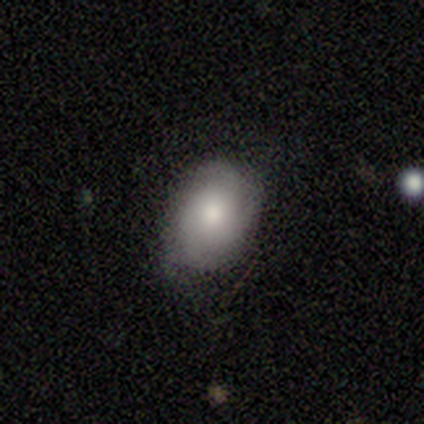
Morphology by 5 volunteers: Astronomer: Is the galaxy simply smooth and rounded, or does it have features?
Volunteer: featured or disk — 60% (runner-up: smooth, 40%).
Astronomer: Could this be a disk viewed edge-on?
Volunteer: no — 100%.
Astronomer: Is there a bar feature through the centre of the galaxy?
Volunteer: no — 100%.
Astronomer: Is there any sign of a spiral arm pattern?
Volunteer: yes — 100%.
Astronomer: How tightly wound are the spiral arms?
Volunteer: tight — 100%.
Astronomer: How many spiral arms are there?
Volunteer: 3 — 100%.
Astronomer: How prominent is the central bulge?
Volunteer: moderate — 67%.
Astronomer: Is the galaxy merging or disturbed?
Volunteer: none — 80%.